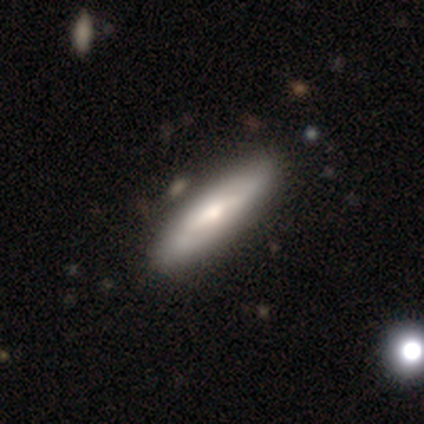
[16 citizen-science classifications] smooth-or-featured: smooth: 69% | featured or disk: 31% | star or artifact: 0%
  how-rounded: cigar-shaped: 82% | in between: 18% | round: 0%
  merging: none: 62% | minor disturbance: 38% | major disturbance: 0% | merger: 0%